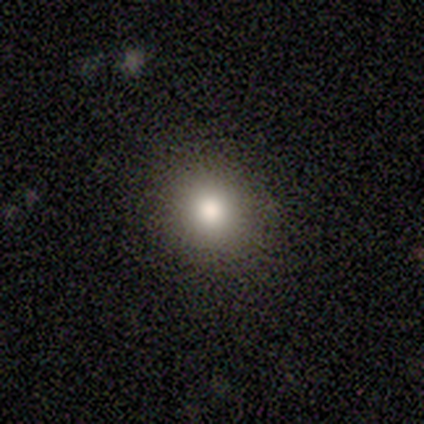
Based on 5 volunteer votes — smooth-or-featured: smooth: 40% (tied) | star or artifact: 40% (tied) | featured or disk: 20%
  how-rounded: round: 50% (tied) | in between: 50% (tied) | cigar-shaped: 0%
  merging: none: 100% | minor disturbance: 0% | major disturbance: 0% | merger: 0%